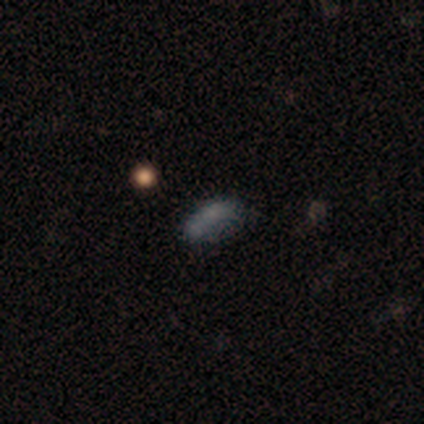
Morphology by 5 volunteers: smooth-or-featured: smooth: 80% | star or artifact: 20% | featured or disk: 0%
  how-rounded: in between: 100% | round: 0% | cigar-shaped: 0%
  merging: none: 75% | merger: 25% | minor disturbance: 0% | major disturbance: 0%